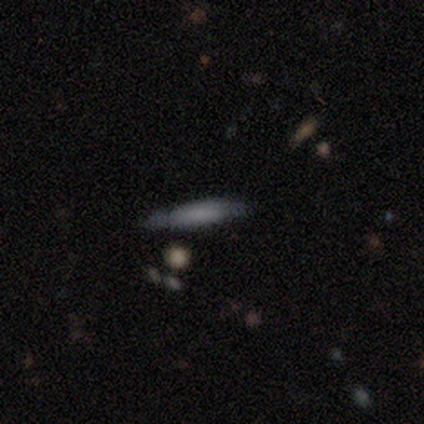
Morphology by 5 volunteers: smooth_or_featured: smooth (p=0.80) [alt: featured or disk p=0.20]
how_rounded: cigar-shaped (p=0.75) [alt: in between p=0.25]
merging: none (p=0.40) [alt: minor disturbance p=0.20]